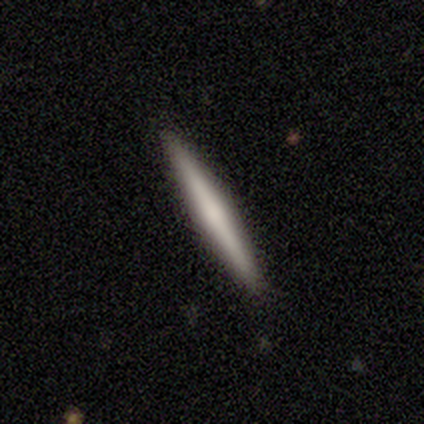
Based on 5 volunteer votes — A smooth galaxy with no disk features (40%, tied with featured or disk) that is cigar-shaped (100%). Merging: none (100%).